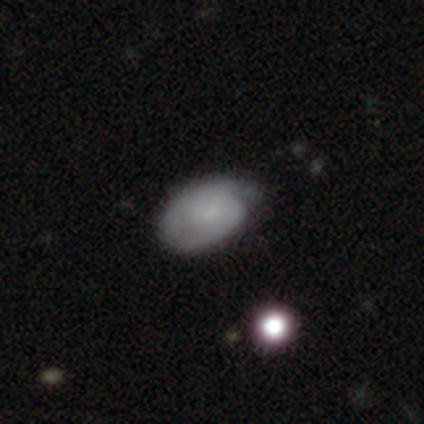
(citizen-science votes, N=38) Smooth or featured? smooth (61%)
How rounded? in between (91%)
Merging? none (57%)